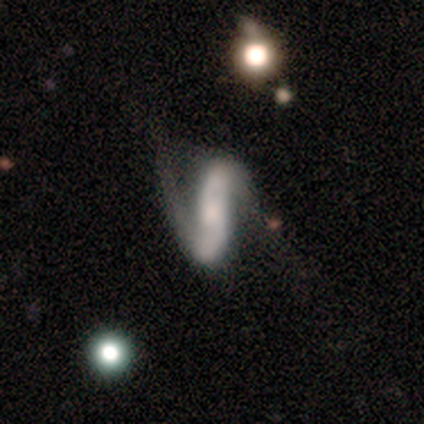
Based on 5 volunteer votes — A featured or disk galaxy (100%) with a strong bar (80%), 2 (100%) loose (100%) spiral arms (100%) and a small central bulge (40%). Merging: none (60%).